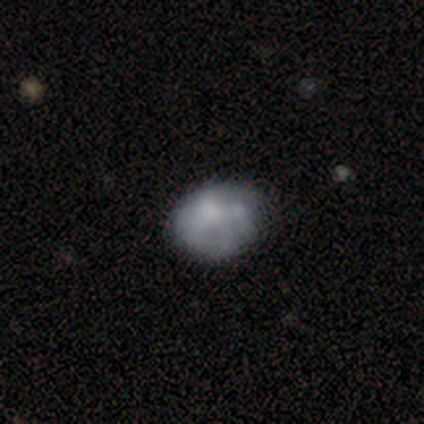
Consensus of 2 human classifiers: Q: Smooth or featured?
A: smooth (100%)
Q: How rounded?
A: in between (100%)
Q: Merging?
A: none (100%)